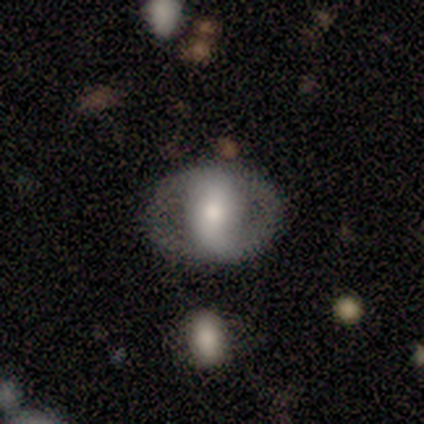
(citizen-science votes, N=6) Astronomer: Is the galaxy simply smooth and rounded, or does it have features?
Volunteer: featured or disk — 67%.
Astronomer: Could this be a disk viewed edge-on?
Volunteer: no — 100%.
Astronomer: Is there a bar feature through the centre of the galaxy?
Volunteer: strong — 50%, tied with no at 50%.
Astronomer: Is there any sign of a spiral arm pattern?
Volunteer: no — 100%.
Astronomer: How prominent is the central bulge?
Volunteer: large — 50%, tied with moderate at 50%.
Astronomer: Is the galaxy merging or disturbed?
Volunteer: none — 67%.